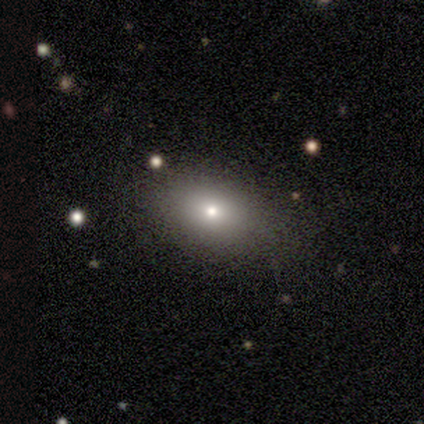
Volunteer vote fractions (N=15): Volunteers were most divided on "how rounded": in between: 70%, round: 30%, cigar-shaped: 0%. More confident: merging — none (92%); smooth or featured — smooth (67%).